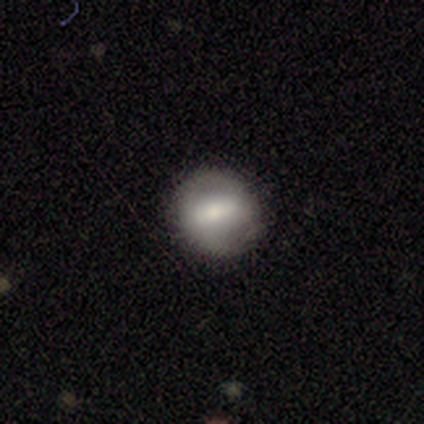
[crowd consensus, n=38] smooth-or-featured: smooth: 47% | featured or disk: 45% | star or artifact: 8%
  how-rounded: round: 100% | in between: 0% | cigar-shaped: 0%
  merging: none: 83% | minor disturbance: 14% | major disturbance: 3% | merger: 0%